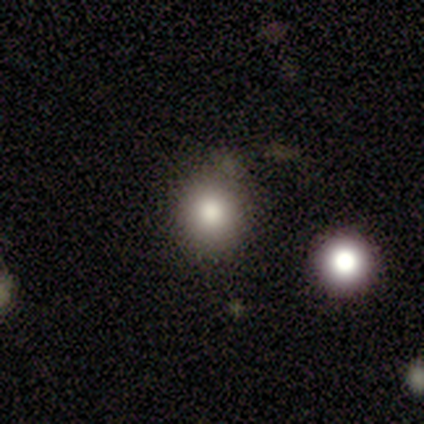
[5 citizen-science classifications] Morphology: type=smooth (60%); roundness=round (100%); merging=none (80%).